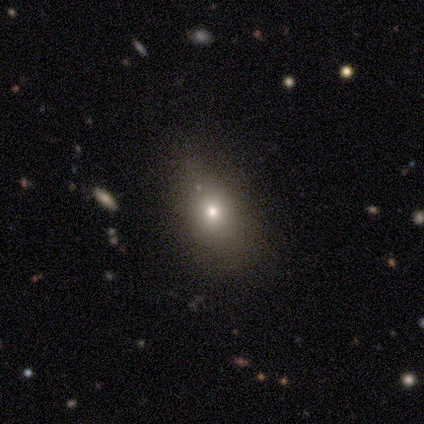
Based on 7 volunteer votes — Smooth or featured: smooth — 57% (star or artifact — 29%)
How rounded: in between — 100%
Merging: none — 100%